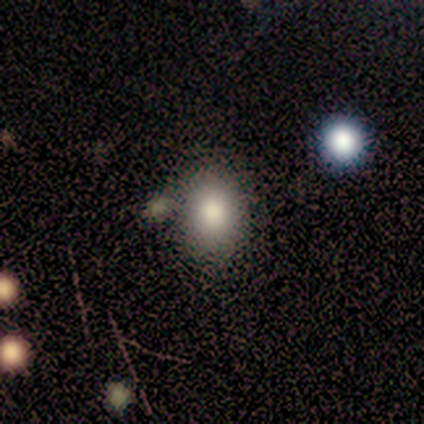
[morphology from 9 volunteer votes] Volunteers were most divided on "how rounded" (2-way tie): round: 50%, in between: 50%, cigar-shaped: 0%. More confident: merging — none (89%); smooth or featured — smooth (67%).